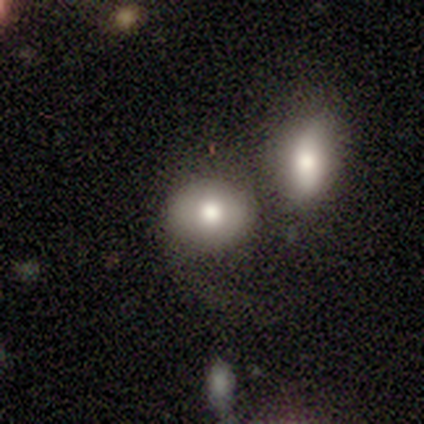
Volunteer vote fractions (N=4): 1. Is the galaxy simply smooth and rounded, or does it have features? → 100% smooth, 0% featured or disk, 0% star or artifact.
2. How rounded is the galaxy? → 50% round (tied), 50% in between (tied), 0% cigar-shaped.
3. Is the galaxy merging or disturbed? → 75% none, 25% merger, 0% minor disturbance, 0% major disturbance.